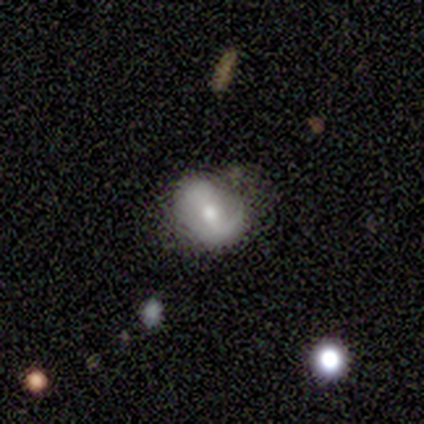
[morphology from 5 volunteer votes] A smooth galaxy with no disk features (40%, tied with featured or disk) that is in between round and cigar-shaped (100%).

Vote fractions:
- Smooth or featured? smooth: 40% (tied) / featured or disk: 40% (tied) / star or artifact: 20%
- How rounded? in between: 100% / round: 0% / cigar-shaped: 0%
- Merging? none: 100% / minor disturbance: 0% / major disturbance: 0% / merger: 0%